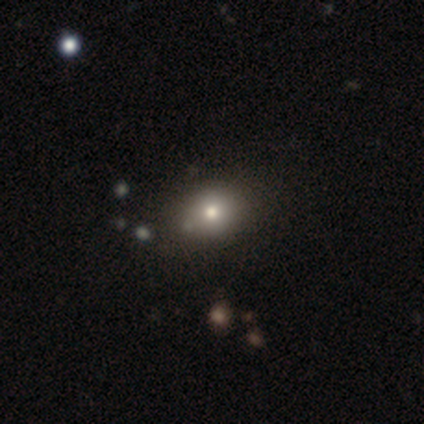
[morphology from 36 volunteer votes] Smooth or featured? 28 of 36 (78%) said smooth. How rounded? 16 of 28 (57%) said in between. Merging? 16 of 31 (52%) said none.